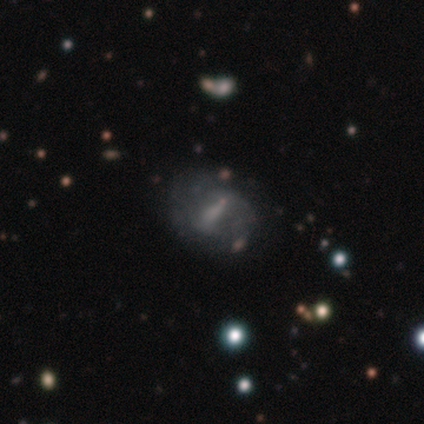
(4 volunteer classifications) star or artifact 50%, smooth 25%, featured or disk 25%.